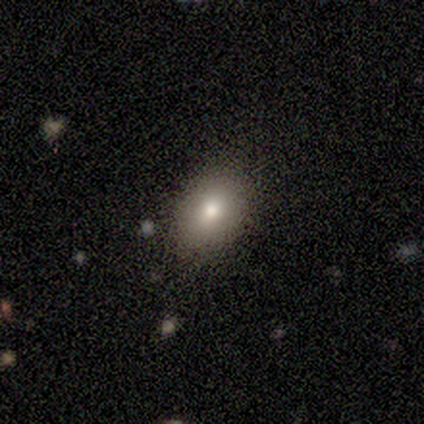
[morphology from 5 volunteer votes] Smooth or featured?
  - smooth: 80% *
  - featured or disk: 20%
  - star or artifact: 0%
How rounded?
  - round: 75% *
  - in between: 25%
  - cigar-shaped: 0%
Merging?
  - none: 80% *
  - minor disturbance: 20%
  - major disturbance: 0%
  - merger: 0%